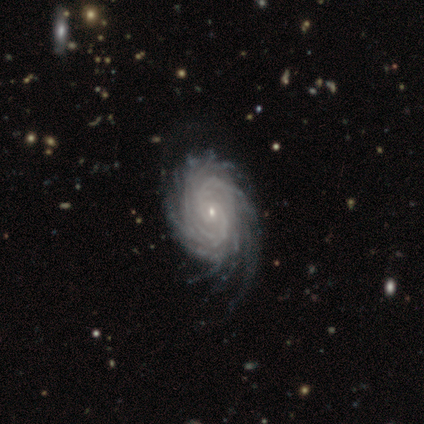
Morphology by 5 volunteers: Smooth or featured?
  - featured or disk: 100% *
  - smooth: 0%
  - star or artifact: 0%
Edge-on disk?
  - no: 100% *
  - yes: 0%
Bar?
  - no: 80% *
  - weak: 20%
  - strong: 0%
Spiral arms?
  - yes: 100% *
  - no: 0%
Spiral winding?
  - tight: 60% *
  - medium: 40%
  - loose: 0%
Spiral arm count?
  - more than 4: 80% *
  - can't tell: 20%
  - 1: 0%
  - 2: 0%
  - 3: 0%
  - 4: 0%
Bulge size?
  - small: 100% *
  - dominant: 0%
  - large: 0%
  - moderate: 0%
  - none: 0%
Merging?
  - none: 60% *
  - minor disturbance: 20%
  - major disturbance: 20%
  - merger: 0%